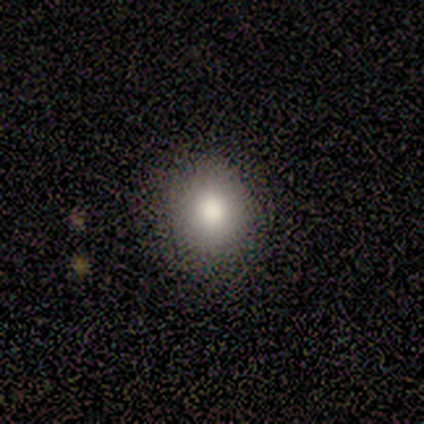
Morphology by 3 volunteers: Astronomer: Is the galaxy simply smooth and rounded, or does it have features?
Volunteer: smooth — 100%.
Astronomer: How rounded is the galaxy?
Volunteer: round — 67%.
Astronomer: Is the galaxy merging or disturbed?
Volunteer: minor disturbance — 67%.